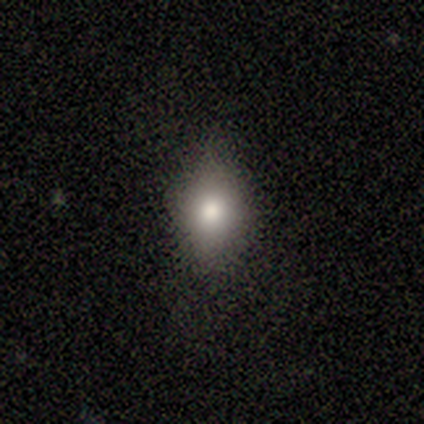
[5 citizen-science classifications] Smooth or featured: smooth — 100%
How rounded: in between — 80% (cigar-shaped — 20%)
Merging: minor disturbance — 60% (none — 40%)